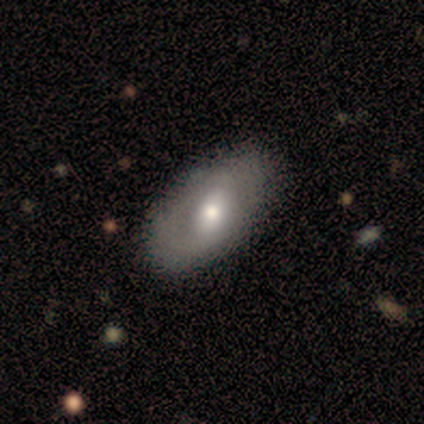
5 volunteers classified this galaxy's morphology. smooth_or_featured: featured or disk (p=0.60) [alt: smooth p=0.40]
disk_edge_on: no (p=0.67) [alt: yes p=0.33]
bar: no (p=1.00)
has_spiral_arms: no (p=1.00)
bulge_size: moderate (p=1.00)
merging: none (p=0.60) [alt: minor disturbance p=0.20]